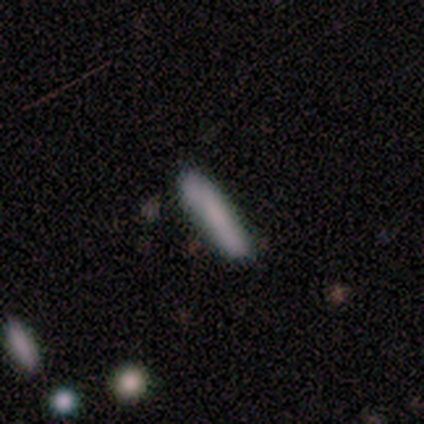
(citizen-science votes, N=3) smooth-or-featured: featured or disk: 67% | smooth: 33% | star or artifact: 0%
  disk-edge-on: yes: 50% (tied) | no: 50% (tied)
    edge-on-bulge: boxy: 100% | none: 0% | rounded: 0%
  merging: none: 67% | minor disturbance: 33% | major disturbance: 0% | merger: 0%